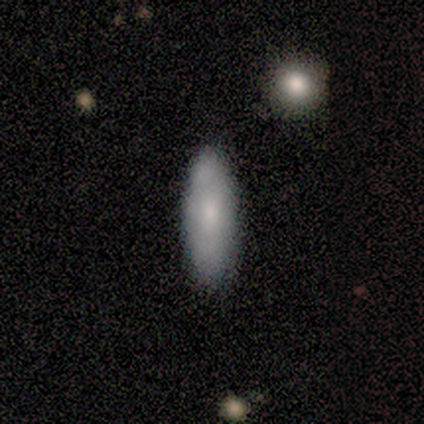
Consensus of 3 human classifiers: Smooth or featured? 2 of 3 (67%) said smooth. How rounded? 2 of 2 (100%) said in between. Merging? 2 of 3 (67%) said none.